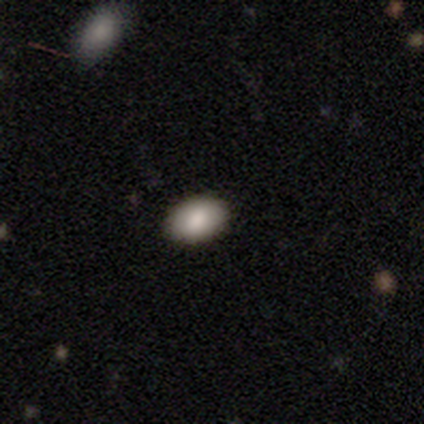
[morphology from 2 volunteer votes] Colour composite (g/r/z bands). It shows a smooth galaxy with no disk features (100%) that is in between round and cigar-shaped (100%). Merging: none (100%).